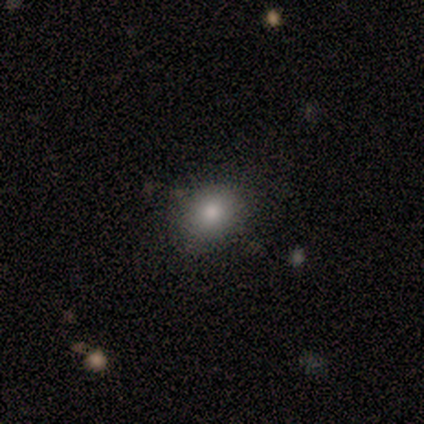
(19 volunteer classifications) Smooth or featured? smooth (89%)
How rounded? in between (71%)
Merging? none (61%)